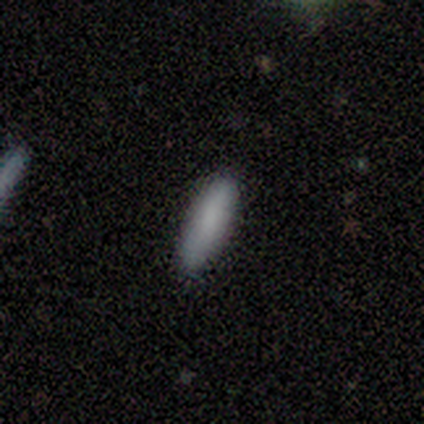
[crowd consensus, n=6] This appears to be a smooth galaxy with no disk features (100%) that is cigar-shaped (83%). Merging: none (100%).